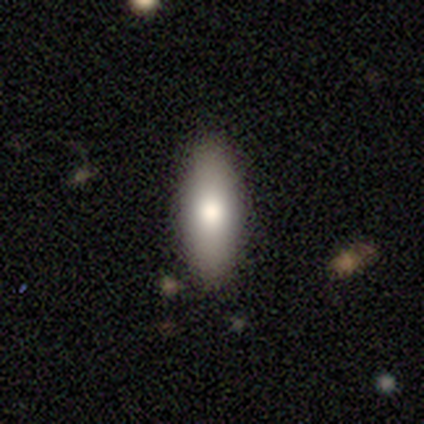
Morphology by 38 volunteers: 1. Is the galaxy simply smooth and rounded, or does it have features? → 76% smooth, 18% featured or disk, 5% star or artifact.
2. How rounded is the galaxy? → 62% in between, 38% cigar-shaped, 0% round.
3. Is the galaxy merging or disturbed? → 89% none, 11% minor disturbance, 0% major disturbance, 0% merger.